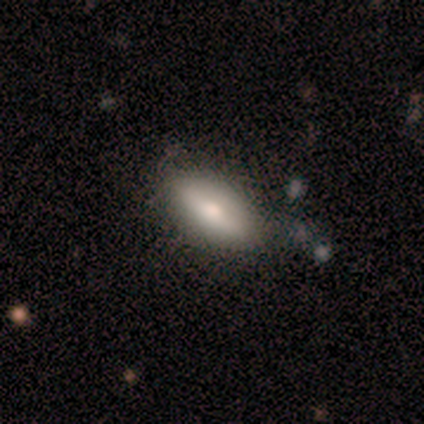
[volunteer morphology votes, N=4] A smooth galaxy with no disk features (50%, tied with featured or disk) that is in between round and cigar-shaped (100%). Merging: none (75%).